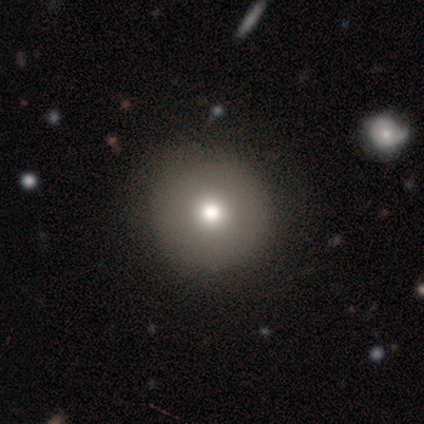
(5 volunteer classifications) Smooth or featured? smooth (80%)
How rounded? round (100%)
Merging? none (60%)